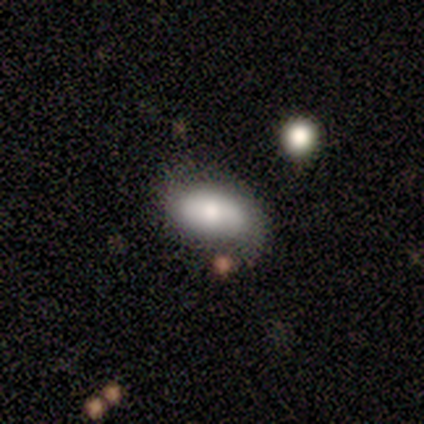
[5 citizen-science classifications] Smooth or featured? smooth (80%)
How rounded? in between (100%)
Merging? none (80%)